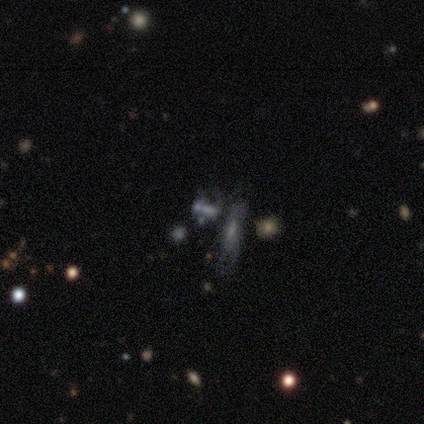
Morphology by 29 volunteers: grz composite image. It shows a star or artifact, not a galaxy (38%).